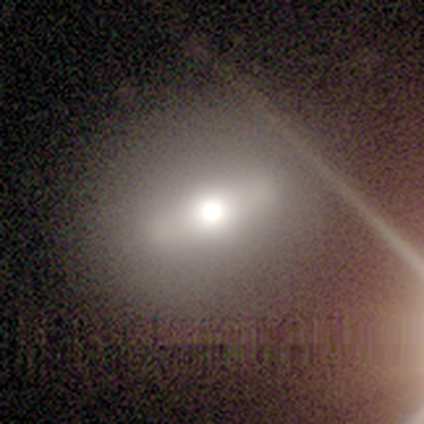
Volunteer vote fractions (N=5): featured or disk 60%, smooth 40%, star or artifact 0%. Down the decision tree: edge-on disk — no (67%); bar — no (100%); spiral arms — no (100%); bulge size — moderate (100%); merging — none (80%).